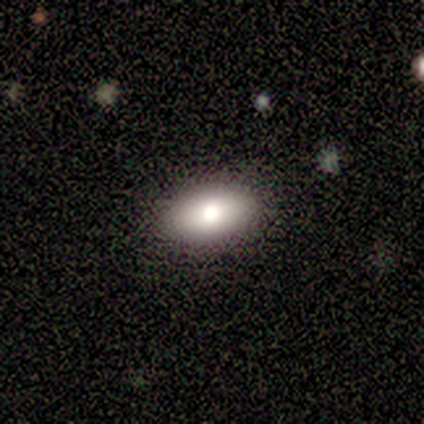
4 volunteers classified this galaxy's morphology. Volunteers were most divided on "smooth or featured" (2-way tie): smooth: 50%, featured or disk: 50%, star or artifact: 0%; "how rounded" (2-way tie): round: 50%, in between: 50%, cigar-shaped: 0%. More confident: merging — none (100%).